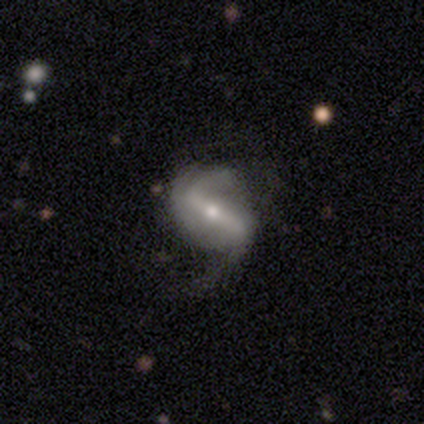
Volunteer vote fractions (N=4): Smooth or featured? 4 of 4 (100%) said featured or disk. Edge-on disk? 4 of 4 (100%) said no. Bar? 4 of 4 (100%) said strong. Spiral arms? 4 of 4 (100%) said yes. Spiral winding? 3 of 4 (75%) said loose. Spiral arm count? 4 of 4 (100%) said 2. Bulge size? 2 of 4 (50%, tied with small) said moderate. Merging? 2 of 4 (50%, tied with major disturbance) said none.